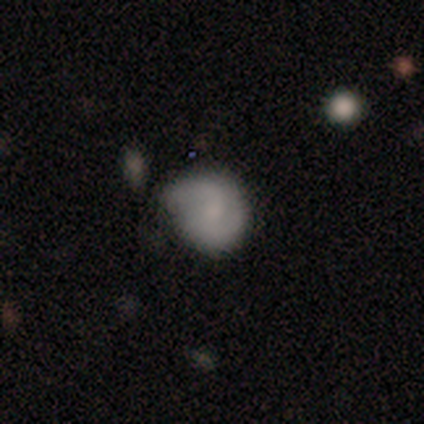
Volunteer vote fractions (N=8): smooth-or-featured: smooth: 50% (tied) | featured or disk: 50% (tied) | star or artifact: 0%
  how-rounded: round: 75% | in between: 25% | cigar-shaped: 0%
  merging: minor disturbance: 75% | none: 12% | major disturbance: 12% | merger: 0%